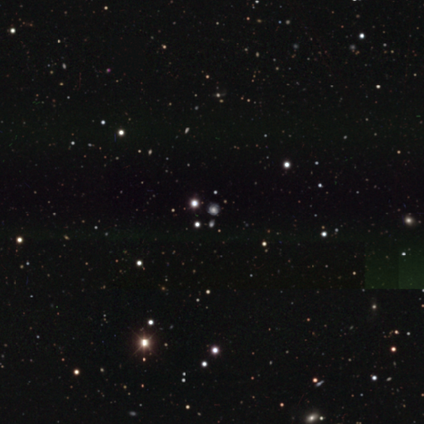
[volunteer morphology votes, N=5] smooth_or_featured: smooth (p=0.40) [tied with: star or artifact p=0.40]
how_rounded: round (p=1.00)
merging: none (p=1.00)